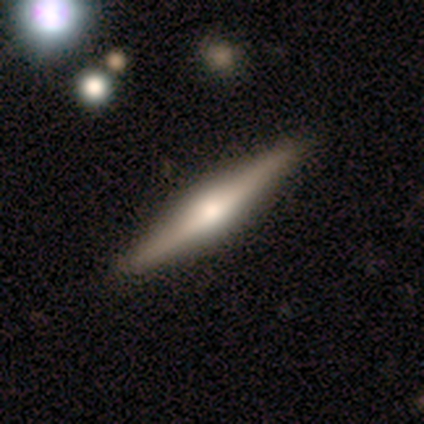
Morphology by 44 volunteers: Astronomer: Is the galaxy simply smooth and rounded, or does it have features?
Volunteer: featured or disk — 80%.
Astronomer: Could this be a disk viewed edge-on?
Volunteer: yes — 97%.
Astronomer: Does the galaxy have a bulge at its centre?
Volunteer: rounded — 97%.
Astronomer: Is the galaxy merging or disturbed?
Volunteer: none — 98%.